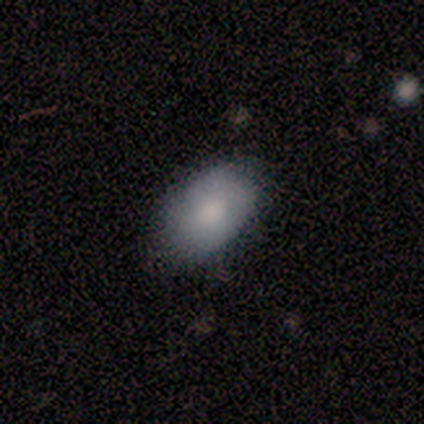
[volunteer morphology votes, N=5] Smooth or featured? 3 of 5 (60%) said smooth. How rounded? 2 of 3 (67%) said in between. Merging? 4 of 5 (80%) said none.